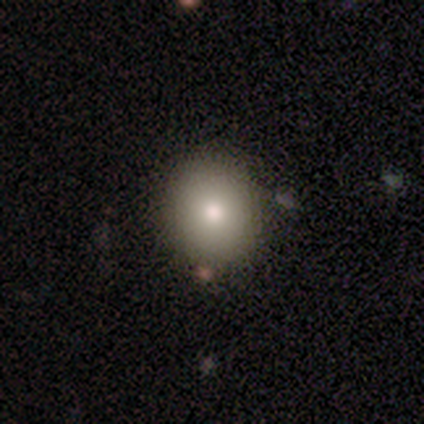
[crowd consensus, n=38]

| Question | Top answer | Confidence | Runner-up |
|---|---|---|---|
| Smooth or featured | smooth | 76% | featured or disk (18%) |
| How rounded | round | 83% | in between (17%) |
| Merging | none | 83% | minor disturbance (6%) |